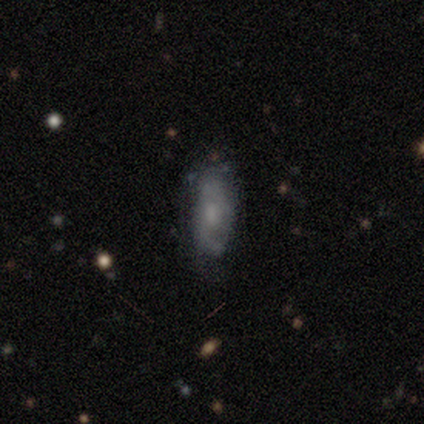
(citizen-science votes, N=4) Smooth or featured? 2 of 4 (50%, tied with featured or disk) said smooth. How rounded? 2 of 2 (100%) said in between. Merging? 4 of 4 (100%) said none.